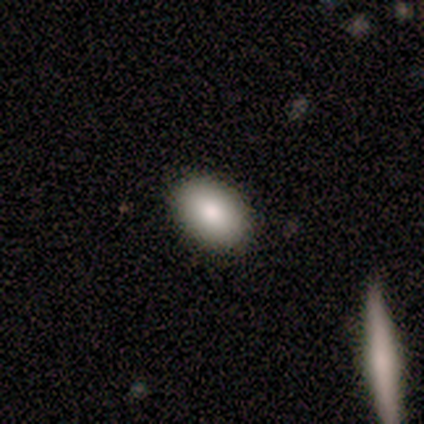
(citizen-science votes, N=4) smooth-or-featured: smooth: 75% | featured or disk: 25% | star or artifact: 0%
  how-rounded: in between: 100% | round: 0% | cigar-shaped: 0%
  merging: none: 100% | minor disturbance: 0% | major disturbance: 0% | merger: 0%